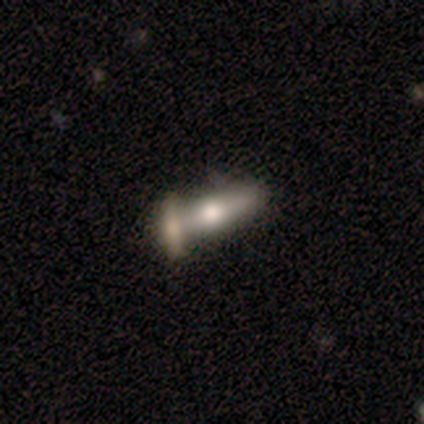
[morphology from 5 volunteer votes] smooth-or-featured: smooth: 80% | featured or disk: 20% | star or artifact: 0%
  how-rounded: cigar-shaped: 75% | in between: 25% | round: 0%
  merging: none: 60% | merger: 40% | minor disturbance: 0% | major disturbance: 0%